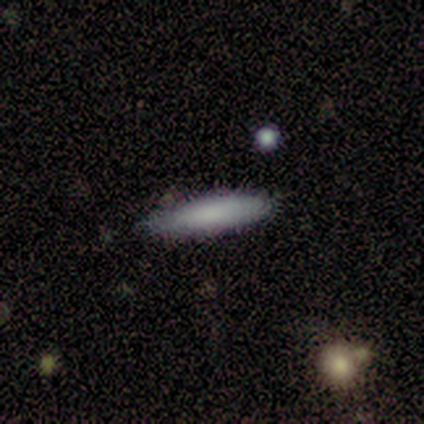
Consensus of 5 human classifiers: Q: Smooth or featured?
A: smooth (100%)
Q: How rounded?
A: cigar-shaped (80%); runner-up: in between (20%)
Q: Merging?
A: none (80%); runner-up: minor disturbance (20%)